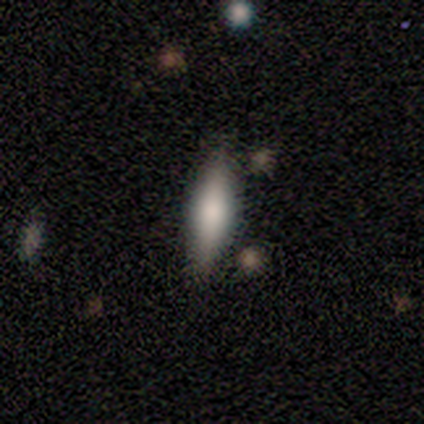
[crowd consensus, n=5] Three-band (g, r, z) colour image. It shows a featured or disk galaxy (60%) viewed edge-on (100%) with a rounded central bulge (67%). Merging: none (60%).